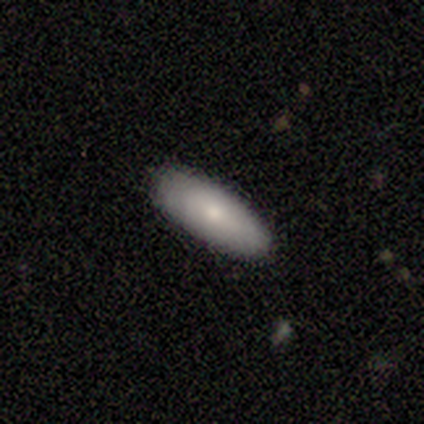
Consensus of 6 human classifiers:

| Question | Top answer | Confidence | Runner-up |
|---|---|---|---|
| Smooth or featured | smooth | 67% | featured or disk (33%) |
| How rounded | cigar-shaped | 75% | in between (25%) |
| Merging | none | 67% | minor disturbance (17%) |